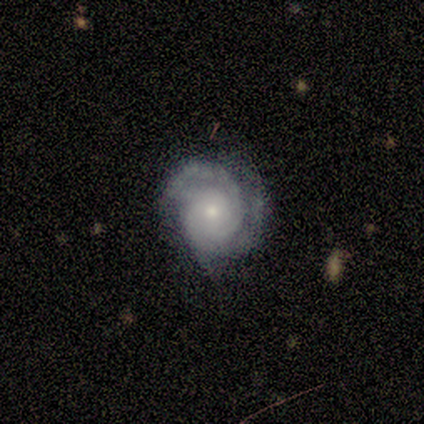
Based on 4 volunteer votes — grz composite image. It shows a featured or disk galaxy (100%) with a weak bar (50%, tied with no), 1 (67%) tight (33%, tied with medium and loose) spiral arms (75%) and a small central bulge (100%). Merging: none (100%).